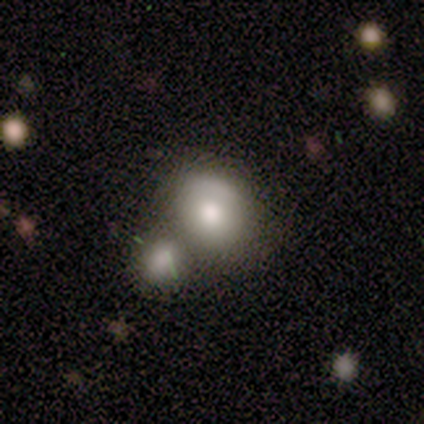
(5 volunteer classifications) smooth-or-featured: smooth: 80% | featured or disk: 20% | star or artifact: 0%
  how-rounded: round: 75% | in between: 25% | cigar-shaped: 0%
  merging: none: 60% | merger: 40% | minor disturbance: 0% | major disturbance: 0%